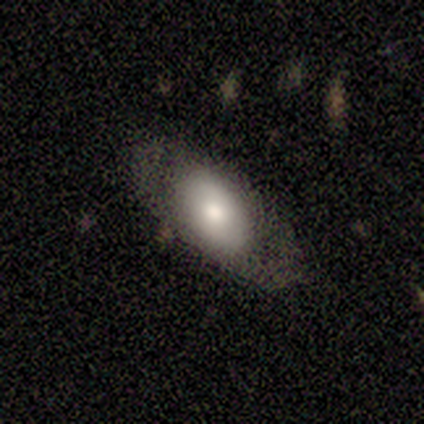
smooth 60%, featured or disk 40%, star or artifact 0%. Down the decision tree: how rounded — in between (100%); merging — none (100%).